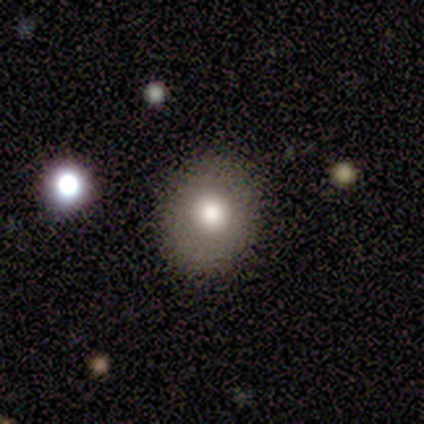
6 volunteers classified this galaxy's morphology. Smooth or featured?
  - smooth: 50% *
  - featured or disk: 33%
  - star or artifact: 17%
How rounded?
  - round: 67% *
  - in between: 33%
  - cigar-shaped: 0%
Merging?
  - none: 100% *
  - minor disturbance: 0%
  - major disturbance: 0%
  - merger: 0%